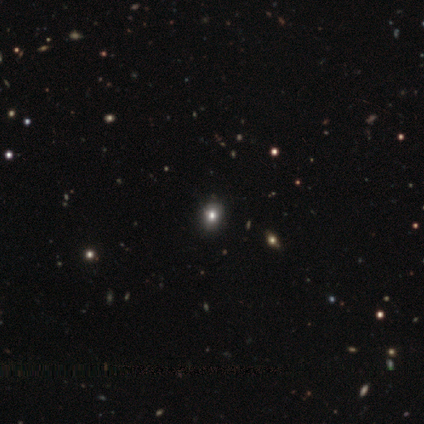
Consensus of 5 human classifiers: A star or artifact, not a galaxy (80%).

Vote fractions:
- Smooth or featured? star or artifact: 80% / smooth: 20% / featured or disk: 0%